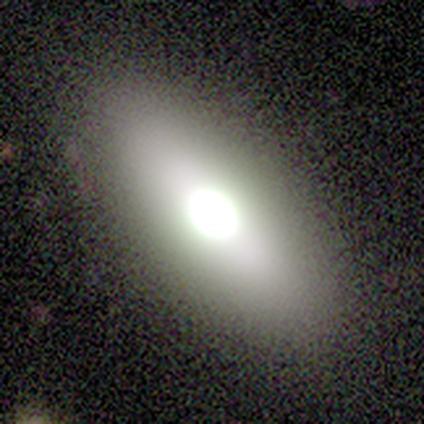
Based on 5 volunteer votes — smooth 80%, featured or disk 20%, star or artifact 0%. Down the decision tree: how rounded — in between (75%); merging — none (60%).